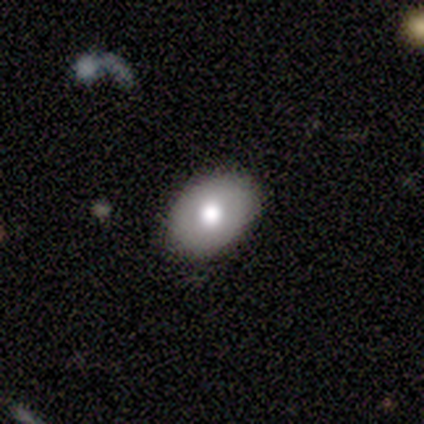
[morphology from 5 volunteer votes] featured or disk 60%, smooth 40%, star or artifact 0%. Down the decision tree: edge-on disk — no (67%); bar — no (100%); spiral arms — no (100%); bulge size — moderate (50%, tied with small); merging — none (60%).